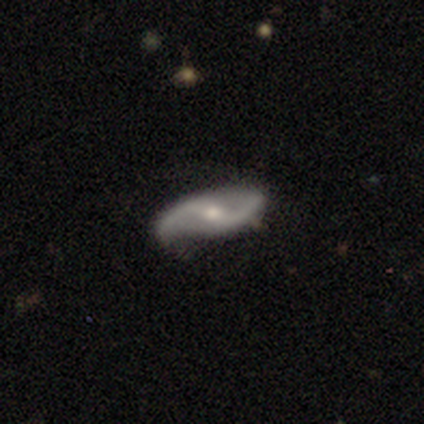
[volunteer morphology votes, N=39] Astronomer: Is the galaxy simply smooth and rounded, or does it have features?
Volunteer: featured or disk — 85%.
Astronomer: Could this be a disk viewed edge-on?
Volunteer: no — 88%.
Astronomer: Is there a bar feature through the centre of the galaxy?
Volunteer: weak — 48% (runner-up: strong, 31%).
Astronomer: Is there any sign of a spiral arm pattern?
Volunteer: yes — 86%.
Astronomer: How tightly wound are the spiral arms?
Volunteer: loose — 80%.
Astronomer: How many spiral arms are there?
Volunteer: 2 — 100%.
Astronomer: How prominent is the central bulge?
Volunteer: small — 52% (runner-up: moderate, 41%).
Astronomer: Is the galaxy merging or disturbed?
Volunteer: none — 66%.